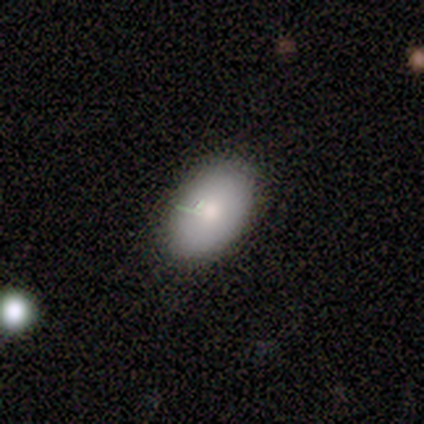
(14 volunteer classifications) Smooth or featured? 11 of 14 (79%) said smooth. How rounded? 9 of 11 (82%) said in between. Merging? 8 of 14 (57%) said none.